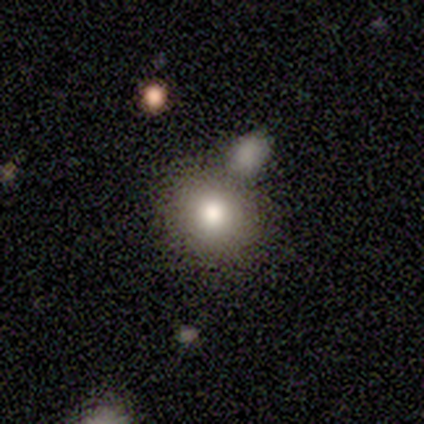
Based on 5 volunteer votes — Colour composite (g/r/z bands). It shows a smooth galaxy with no disk features (100%) that is round (100%). Merging: none (60%).